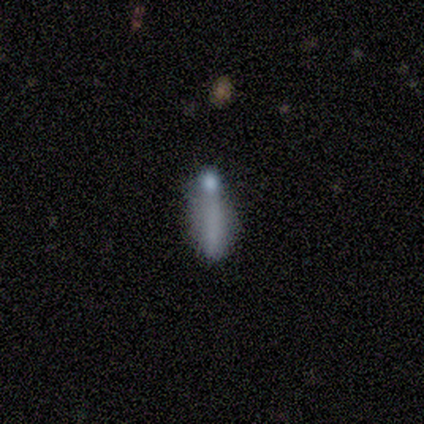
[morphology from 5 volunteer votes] Smooth or featured? smooth (40%, tied with featured or disk)
How rounded? in between (50%, tied with cigar-shaped)
Merging? minor disturbance (50%)